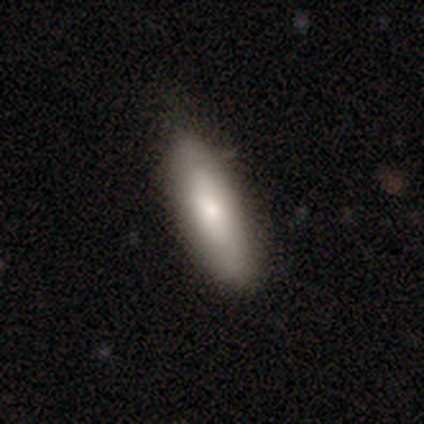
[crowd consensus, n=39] A smooth galaxy with no disk features (74%) that is in between round and cigar-shaped (69%). Merging: none (89%).